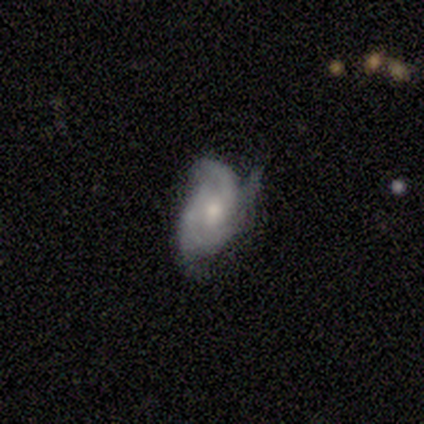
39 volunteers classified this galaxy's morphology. Volunteers were most divided on "spiral arm count": 2: 38%, 3: 24%, 4: 19%, can't tell: 19%, 1: 0%, more than 4: 0%. Remaining: edge-on disk — no (100%); spiral arms — yes (84%); bar — no (72%); spiral winding — medium (67%); smooth or featured — featured or disk (64%); bulge size — moderate (64%); merging — minor disturbance (49%).